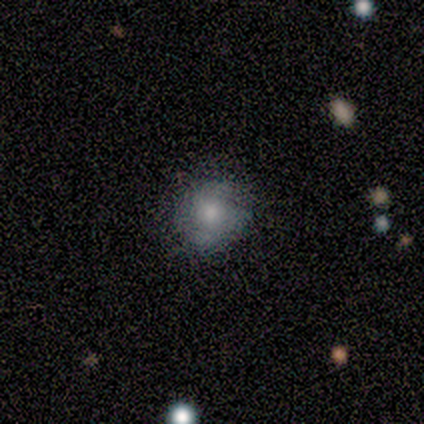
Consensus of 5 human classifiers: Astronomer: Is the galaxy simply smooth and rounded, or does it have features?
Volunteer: smooth — 60% (runner-up: featured or disk, 40%).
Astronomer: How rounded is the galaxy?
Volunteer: round — 100%.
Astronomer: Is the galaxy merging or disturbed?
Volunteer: none — 60% (runner-up: minor disturbance, 40%).